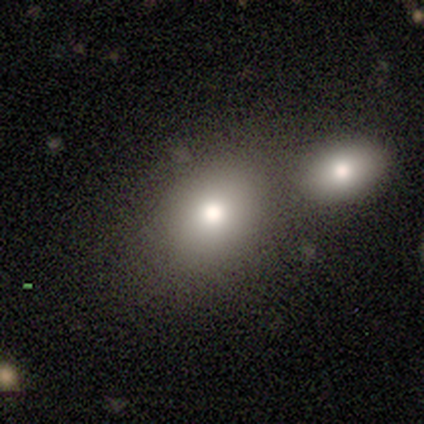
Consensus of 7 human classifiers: Smooth or featured: smooth — 100%
How rounded: round — 57% (in between — 43%)
Merging: none — 57% (merger — 43%)